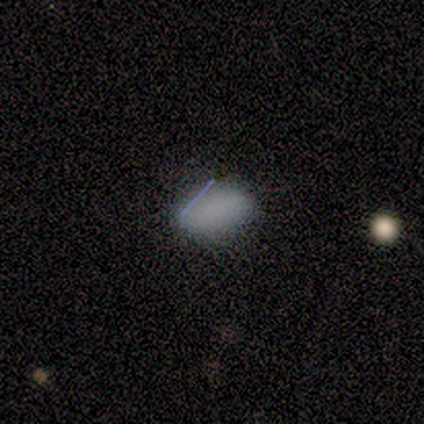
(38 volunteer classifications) Smooth or featured?
  - smooth: 84% *
  - featured or disk: 8%
  - star or artifact: 8%
How rounded?
  - in between: 94% *
  - round: 3%
  - cigar-shaped: 3%
Merging?
  - none: 66% *
  - minor disturbance: 6%
  - major disturbance: 3%
  - merger: 3%